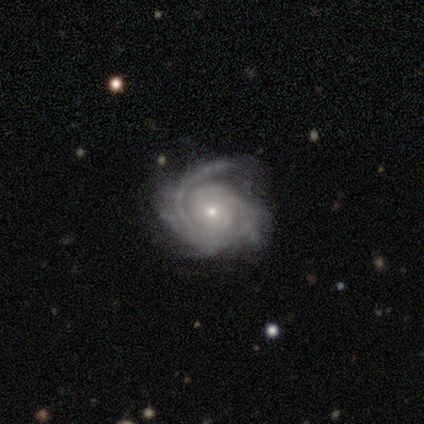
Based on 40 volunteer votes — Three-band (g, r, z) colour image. It shows a featured or disk galaxy (88%) with no bar (74%), 2 (26%, tied with can't tell) tight (71%) spiral arms (100%) and a small central bulge (74%). Merging: none (61%).